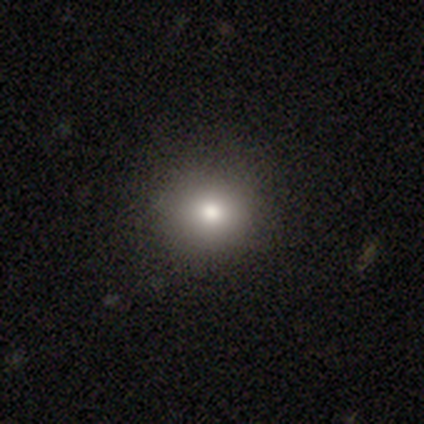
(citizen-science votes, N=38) smooth 84%, star or artifact 11%, featured or disk 5%. Down the decision tree: how rounded — round (84%); merging — none (85%).